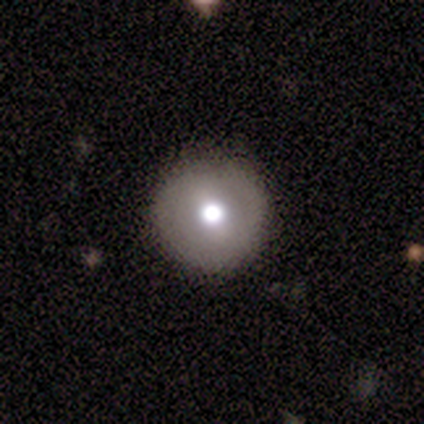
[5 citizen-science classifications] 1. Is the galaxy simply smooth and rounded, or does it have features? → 40% smooth (tied), 40% star or artifact (tied), 20% featured or disk.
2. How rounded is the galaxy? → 100% round, 0% in between, 0% cigar-shaped.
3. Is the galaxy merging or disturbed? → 100% none, 0% minor disturbance, 0% major disturbance, 0% merger.